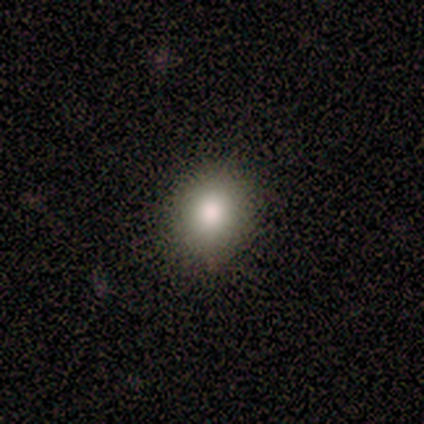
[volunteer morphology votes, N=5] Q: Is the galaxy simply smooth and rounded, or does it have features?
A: smooth — 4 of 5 (80%).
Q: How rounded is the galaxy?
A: in between — 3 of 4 (75%).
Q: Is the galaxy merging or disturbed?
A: none — 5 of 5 (100%).